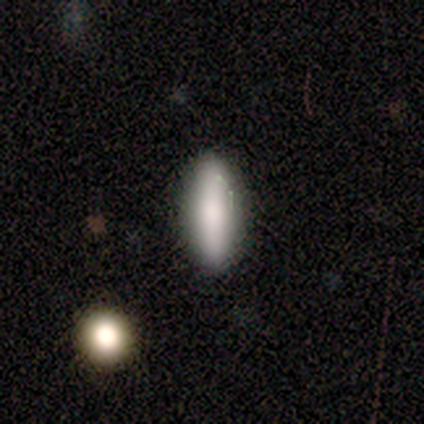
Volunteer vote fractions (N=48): smooth_or_featured: smooth (p=0.75) [alt: featured or disk p=0.21]
how_rounded: in between (p=0.69) [alt: cigar-shaped p=0.31]
merging: none (p=0.85) [alt: minor disturbance p=0.11]